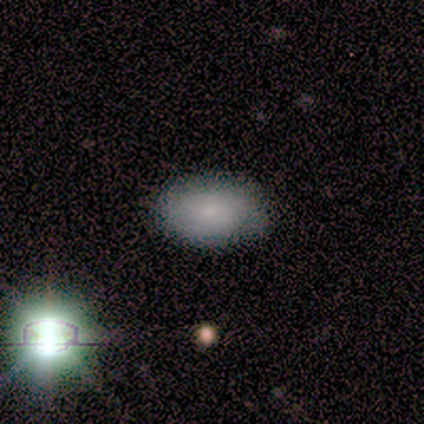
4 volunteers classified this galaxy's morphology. This appears to be a smooth galaxy with no disk features (100%) that is in between round and cigar-shaped (100%). Merging: none (100%).